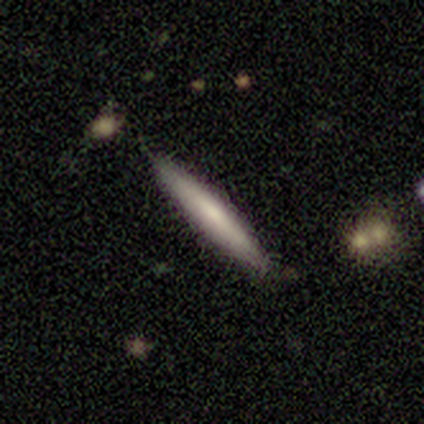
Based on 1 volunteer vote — This is clearly a smooth galaxy (100%). How rounded: clearly cigar-shaped (100%). Merging: clearly none (100%).